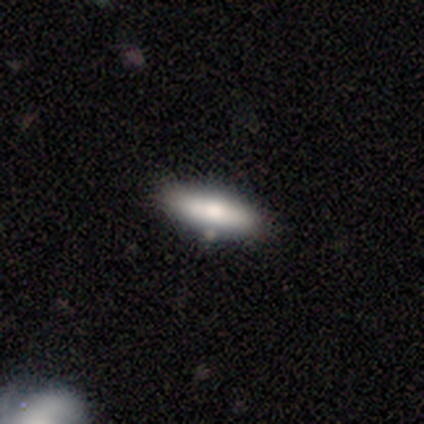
Smooth or featured?
  - smooth: 80% *
  - featured or disk: 20%
  - star or artifact: 0%
How rounded?
  - in between: 75% *
  - cigar-shaped: 25%
  - round: 0%
Merging?
  - none: 100% *
  - minor disturbance: 0%
  - major disturbance: 0%
  - merger: 0%